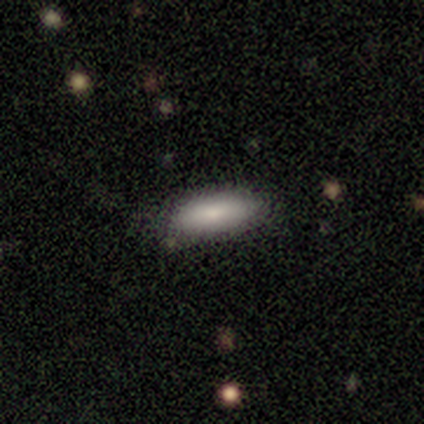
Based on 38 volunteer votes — Smooth or featured? smooth (84%)
How rounded? in between (66%)
Merging? none (78%)